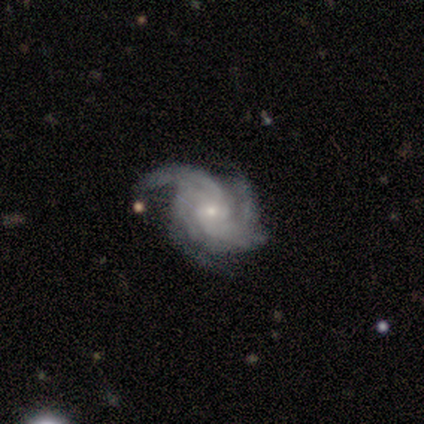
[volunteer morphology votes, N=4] Smooth or featured?
  - featured or disk: 100% *
  - smooth: 0%
  - star or artifact: 0%
Edge-on disk?
  - no: 100% *
  - yes: 0%
Bar?
  - weak: 75% *
  - no: 25%
  - strong: 0%
Spiral arms?
  - yes: 100% *
  - no: 0%
Spiral winding?
  - loose: 50% *
  - tight: 25%
  - medium: 25%
Spiral arm count?
  - 2: 50% *
  - 3: 25%
  - can't tell: 25%
  - 1: 0%
  - 4: 0%
  - more than 4: 0%
Bulge size?
  - moderate: 75% *
  - small: 25%
  - dominant: 0%
  - large: 0%
  - none: 0%
Merging?
  - major disturbance: 75% *
  - none: 25%
  - minor disturbance: 0%
  - merger: 0%